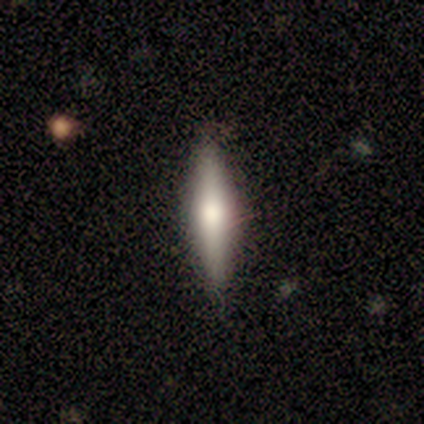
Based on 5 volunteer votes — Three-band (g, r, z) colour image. It shows a featured or disk galaxy (80%) viewed edge-on (100%) with a rounded central bulge (75%). Merging: none (100%).